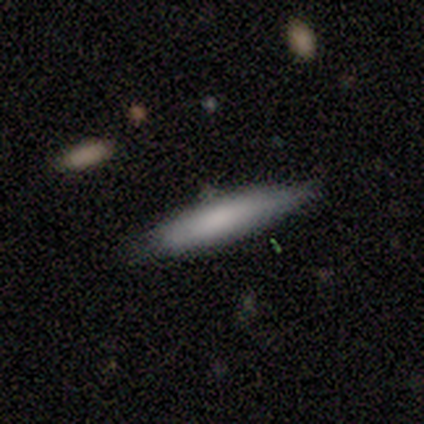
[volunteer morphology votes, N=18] A smooth galaxy with no disk features (72%) that is cigar-shaped (77%).

Vote fractions:
- Smooth or featured? smooth: 72% / featured or disk: 22% / star or artifact: 6%
- How rounded? cigar-shaped: 77% / in between: 23% / round: 0%
- Merging? none: 76% / minor disturbance: 18% / merger: 6% / major disturbance: 0%